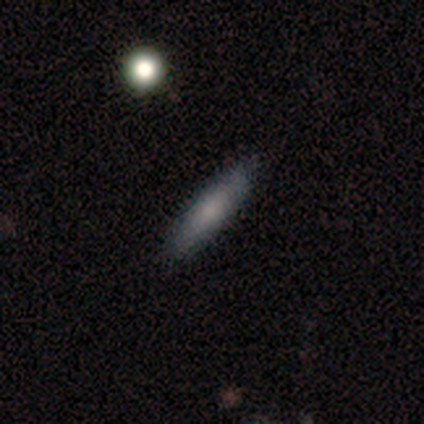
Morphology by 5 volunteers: smooth_or_featured: smooth (p=0.60) [alt: featured or disk p=0.40]
how_rounded: cigar-shaped (p=1.00)
merging: none (p=0.80) [alt: minor disturbance p=0.20]